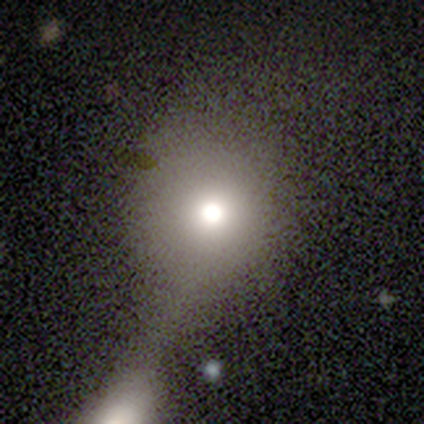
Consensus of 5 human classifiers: This appears to be a smooth galaxy with no disk features (100%) that is round (100%). Merging: none (40%, tied with minor disturbance).